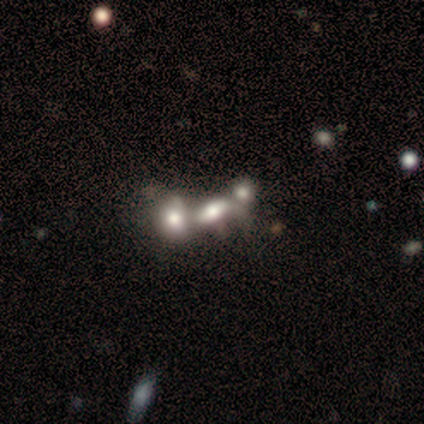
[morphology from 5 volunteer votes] Smooth or featured? smooth (60%)
How rounded? in between (67%)
Merging? merger (75%)